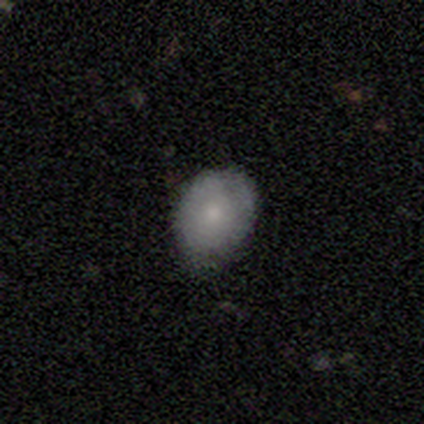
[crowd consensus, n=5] This is likely a featured or disk galaxy (60%). It is clearly not viewed edge-on (100%). Bar: clearly no (100%). Spiral arm pattern: clearly no (100%). Central bulge: likely small (67%). Merging: clearly none (80%).